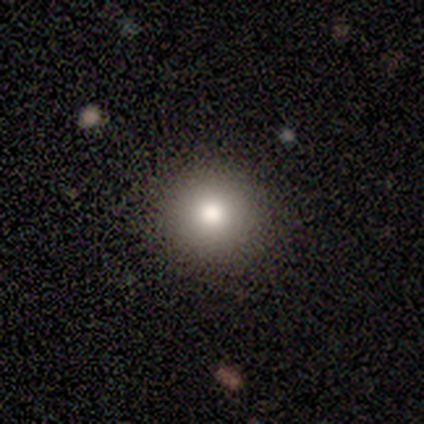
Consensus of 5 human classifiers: Volunteers were most divided on "how rounded": round: 80%, in between: 20%, cigar-shaped: 0%. More confident: smooth or featured — smooth (100%); merging — none (100%).